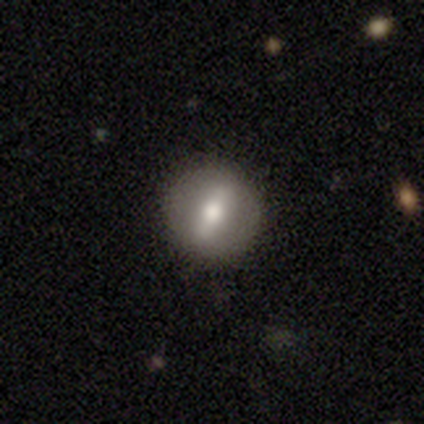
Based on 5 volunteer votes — Morphology: type=featured or disk (60%); edge-on=no (67%); bar=strong (100%); spiral arms=no (100%); bulge=large (50%, tied with moderate); merging=none (80%).